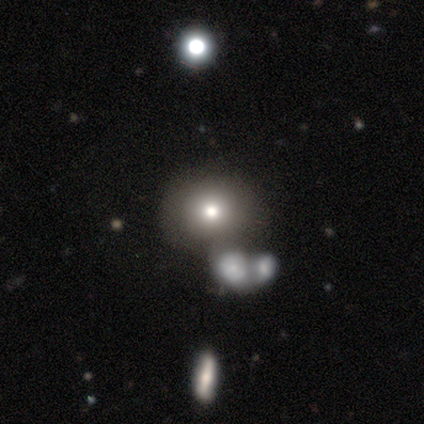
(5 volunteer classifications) Q: Smooth or featured?
A: smooth (100%)
Q: How rounded?
A: round (60%); runner-up: in between (40%)
Q: Merging?
A: none (100%)